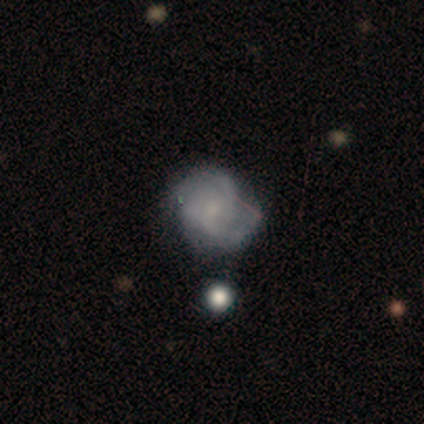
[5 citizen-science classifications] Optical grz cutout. It shows a featured or disk galaxy (60%) with a weak bar (67%), 2 (67%) medium (67%) spiral arms (100%) and a small central bulge (67%). Merging: none (60%).